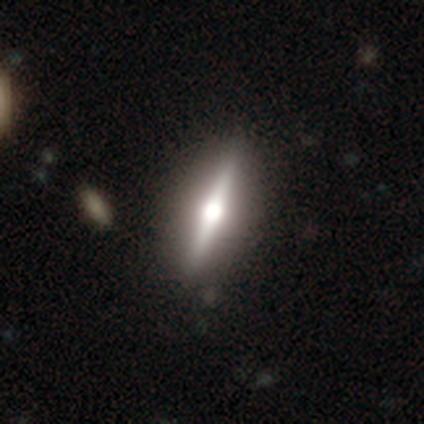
This appears to be a featured or disk galaxy (76%) viewed edge-on (96%) with a rounded central bulge (100%). Merging: none (87%).